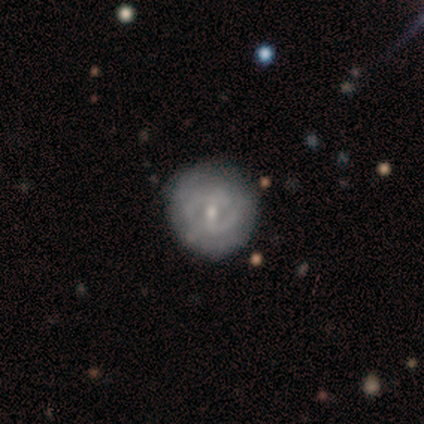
Smooth or featured? 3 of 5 (60%) said featured or disk. Edge-on disk? 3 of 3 (100%) said no. Bar? 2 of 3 (67%) said no. Spiral arms? 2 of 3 (67%) said no. Bulge size? 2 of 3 (67%) said small. Merging? 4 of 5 (80%) said none.